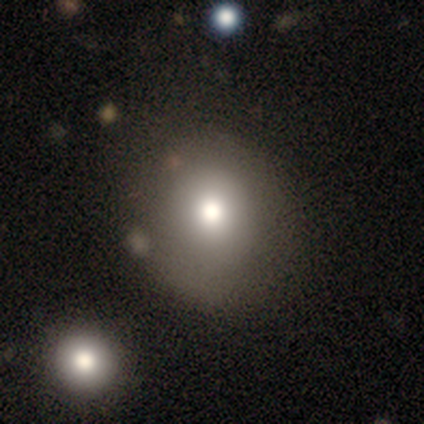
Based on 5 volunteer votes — Morphology: type=smooth (80%); roundness=round (100%); merging=none (75%).